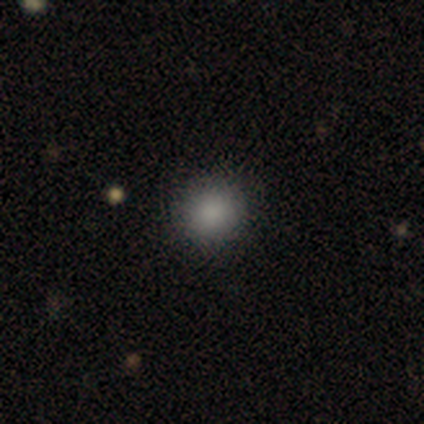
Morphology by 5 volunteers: Overall: smooth (100%). How rounded: round (80%). Merging: none (80%).